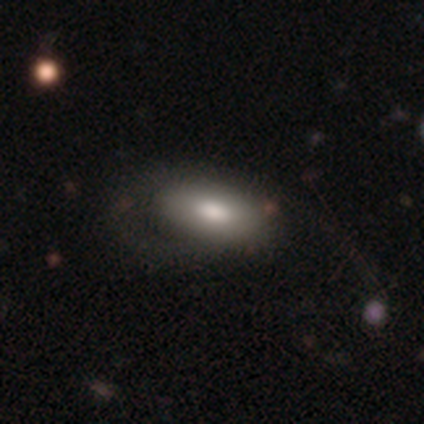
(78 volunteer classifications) Q: Smooth or featured?
A: smooth (73%); runner-up: featured or disk (23%)
Q: How rounded?
A: in between (95%); runner-up: cigar-shaped (4%)
Q: Merging?
A: none (21%); runner-up: major disturbance (20%)